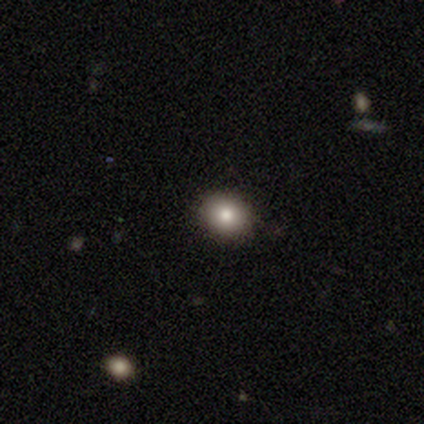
smooth 83%, featured or disk 17%, star or artifact 0%. Down the decision tree: how rounded — round (60%); merging — none (100%).